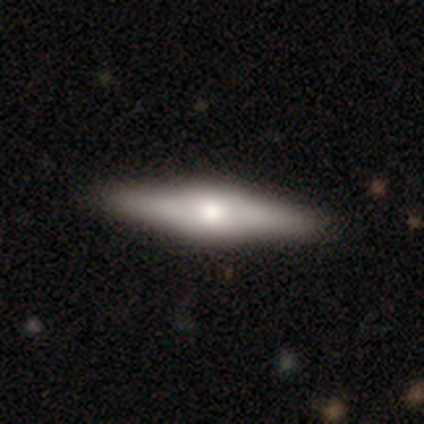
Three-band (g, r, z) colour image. It shows a featured or disk galaxy (60%) viewed edge-on (100%) with a rounded central bulge (100%). Merging: none (100%).